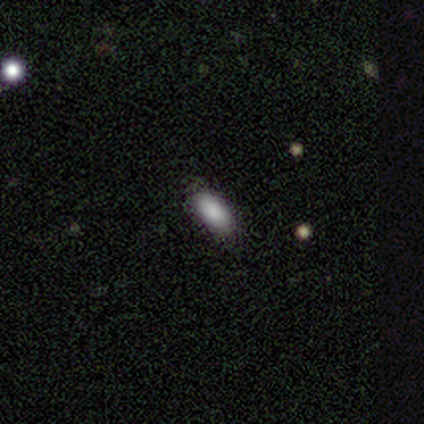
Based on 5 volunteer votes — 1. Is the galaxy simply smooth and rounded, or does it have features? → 100% smooth, 0% featured or disk, 0% star or artifact.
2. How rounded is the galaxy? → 100% in between, 0% round, 0% cigar-shaped.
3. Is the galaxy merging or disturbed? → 100% none, 0% minor disturbance, 0% major disturbance, 0% merger.